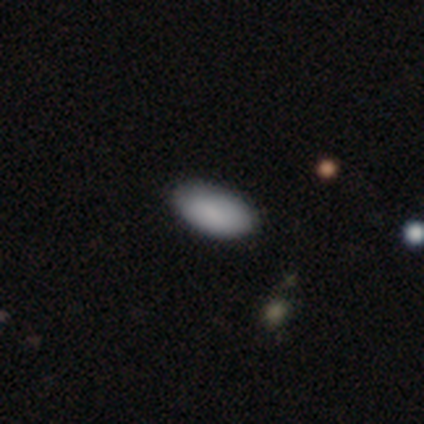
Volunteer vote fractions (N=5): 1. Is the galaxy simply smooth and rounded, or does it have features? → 100% smooth, 0% featured or disk, 0% star or artifact.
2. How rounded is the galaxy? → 100% in between, 0% round, 0% cigar-shaped.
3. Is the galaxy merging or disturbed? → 80% none, 20% merger, 0% minor disturbance, 0% major disturbance.